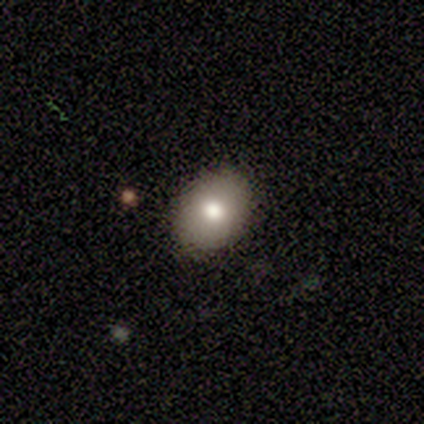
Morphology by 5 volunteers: Smooth or featured?
  - smooth: 80% *
  - star or artifact: 20%
  - featured or disk: 0%
How rounded?
  - in between: 100% *
  - round: 0%
  - cigar-shaped: 0%
Merging?
  - none: 75% *
  - minor disturbance: 25%
  - major disturbance: 0%
  - merger: 0%